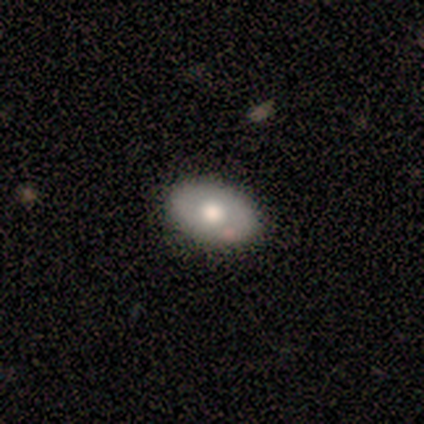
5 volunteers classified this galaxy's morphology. Overall: smooth (60%; featured or disk 40%). How rounded: in between (100%). Merging: none (80%).